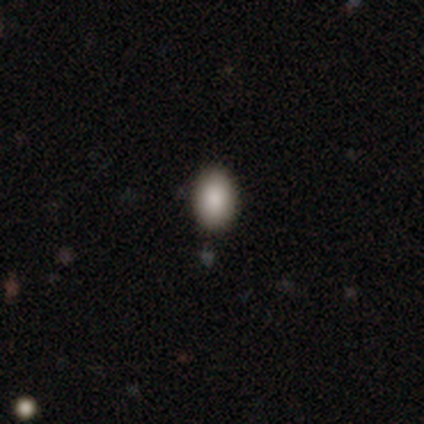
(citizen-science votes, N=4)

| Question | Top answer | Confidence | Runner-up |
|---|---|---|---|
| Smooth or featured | smooth | 100% | — |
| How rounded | round | 75% | in between (25%) |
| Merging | none | 100% | — |